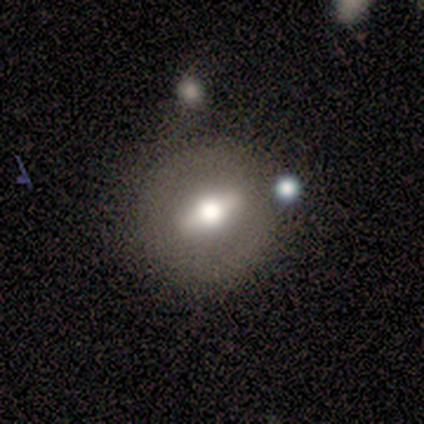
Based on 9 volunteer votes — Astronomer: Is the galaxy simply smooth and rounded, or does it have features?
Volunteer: featured or disk — 67%.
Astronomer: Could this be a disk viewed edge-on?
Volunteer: no — 67%.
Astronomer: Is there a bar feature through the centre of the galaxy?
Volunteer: no — 75%.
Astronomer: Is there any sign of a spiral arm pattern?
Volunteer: no — 75%.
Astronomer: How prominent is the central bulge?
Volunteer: moderate — 75%.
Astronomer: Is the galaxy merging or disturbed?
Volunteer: none — 100%.